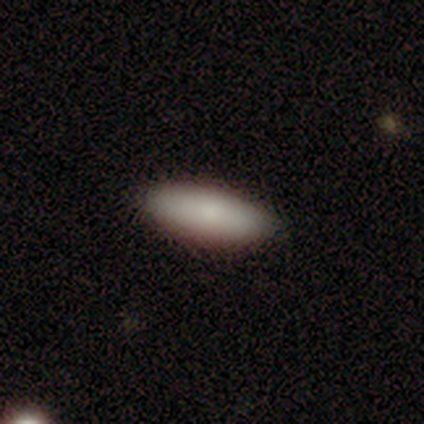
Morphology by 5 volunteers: This appears to be a smooth galaxy with no disk features (80%) that is in between round and cigar-shaped (50%, tied with cigar-shaped). Merging: none (100%).